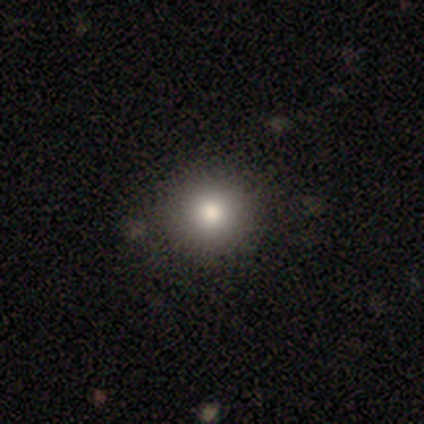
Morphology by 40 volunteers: smooth_or_featured: smooth (p=0.85) [alt: star or artifact p=0.10]
how_rounded: round (p=0.94) [alt: in between p=0.06]
merging: none (p=0.94) [alt: minor disturbance p=0.03]